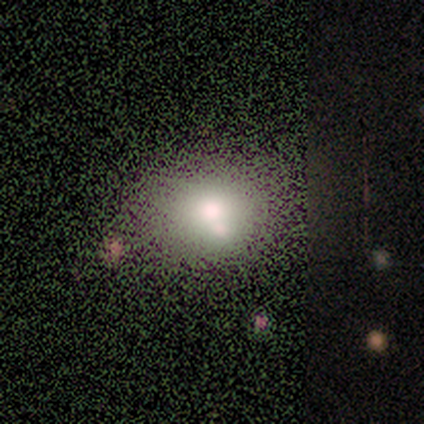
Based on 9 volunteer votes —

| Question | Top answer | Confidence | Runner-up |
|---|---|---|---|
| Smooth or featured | smooth | 67% | star or artifact (22%) |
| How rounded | round | 50% | tied: in between (50%) |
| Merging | none | 57% | major disturbance (29%) |